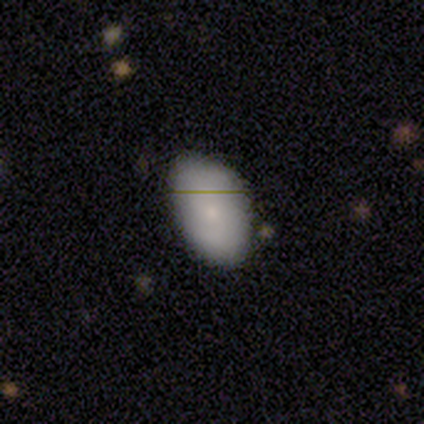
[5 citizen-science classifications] Smooth or featured? 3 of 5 (60%) said smooth. How rounded? 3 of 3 (100%) said in between. Merging? 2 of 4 (50%, tied with minor disturbance) said none.